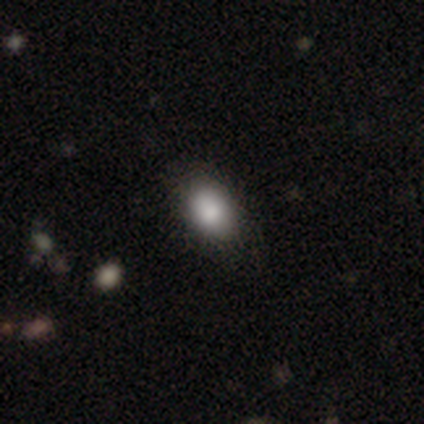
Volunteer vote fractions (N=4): Overall: smooth (75%). How rounded: in between (100%). Merging: none (100%).